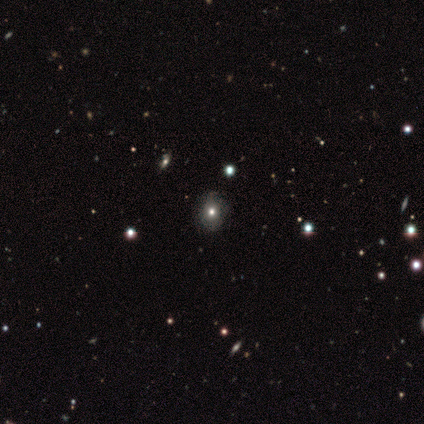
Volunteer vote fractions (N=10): Overall: star or artifact (40%; smooth 30%).